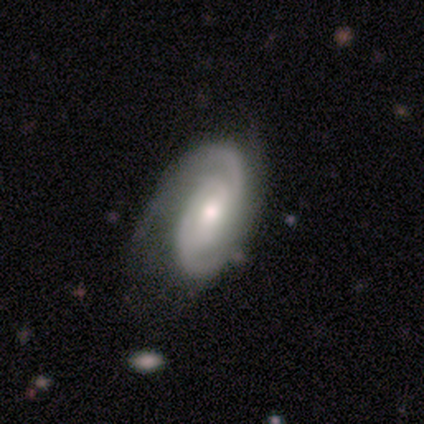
Overall: featured or disk (89%). Edge-on disk: no (100%). Bar: weak (62%; strong 38%). Spiral arms: yes (100%). Spiral arm count: 2 (62%; 3 25%). Spiral winding: tight (75%). Bulge size: moderate (88%). Merging: none (78%).